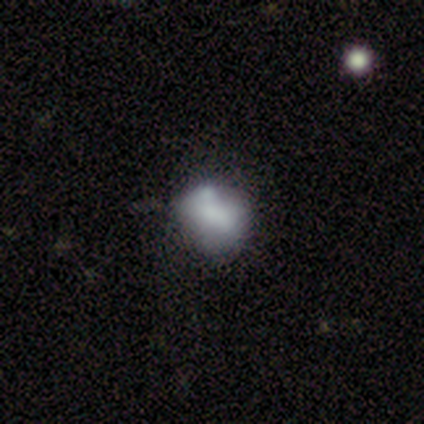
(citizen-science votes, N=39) smooth-or-featured: featured or disk: 46% | smooth: 44% | star or artifact: 10%
  disk-edge-on: no: 100% | yes: 0%
    bar: no: 89% | weak: 11% | strong: 0%
    has-spiral-arms: no: 89% | yes: 11%
    bulge-size: dominant: 28% | moderate: 22% | none: 22% | small: 17% | large: 11%
  merging: merger: 31% | none: 26% | minor disturbance: 17% | major disturbance: 6%